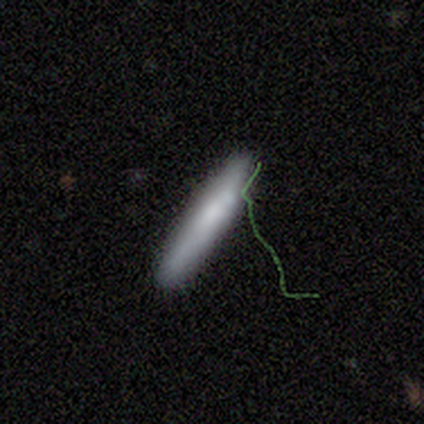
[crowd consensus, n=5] Smooth or featured? 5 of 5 (100%) said smooth. How rounded? 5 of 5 (100%) said cigar-shaped. Merging? 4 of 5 (80%) said none.